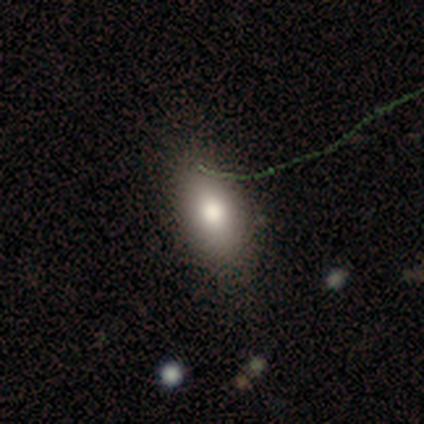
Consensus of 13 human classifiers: Volunteers were most divided on "merging": none: 67%, minor disturbance: 17%, major disturbance: 17%, merger: 0%. More confident: smooth or featured — smooth (92%); how rounded — in between (92%).